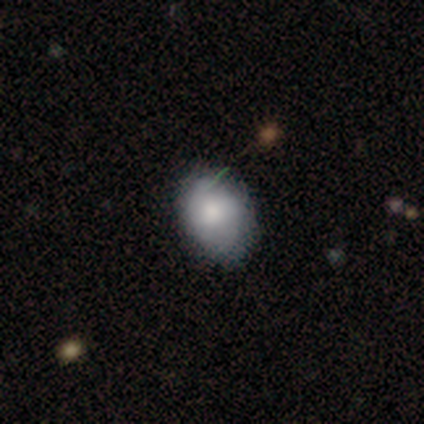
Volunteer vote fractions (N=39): smooth 77%, featured or disk 21%, star or artifact 3%. Down the decision tree: how rounded — in between (67%); merging — none (61%).